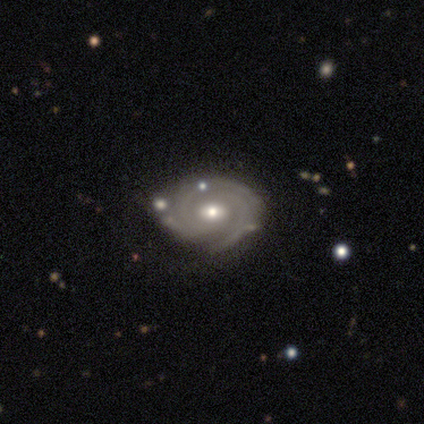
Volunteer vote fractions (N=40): featured or disk 90%, smooth 8%, star or artifact 2%. Down the decision tree: edge-on disk — no (94%); bar — no (59%); spiral arms — yes (97%); spiral arm count — 3 (61%); spiral winding — tight (82%); bulge size — moderate (71%); merging — none (54%).